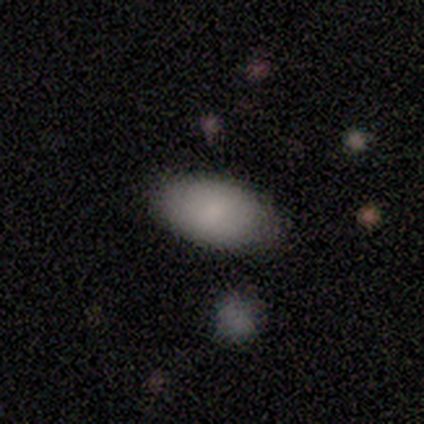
smooth-or-featured: smooth: 92% | featured or disk: 8% | star or artifact: 0%
  how-rounded: in between: 100% | round: 0% | cigar-shaped: 0%
  merging: none: 92% | major disturbance: 8% | minor disturbance: 0% | merger: 0%